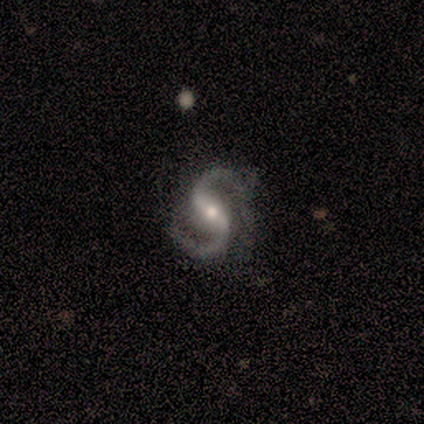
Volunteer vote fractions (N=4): smooth-or-featured: featured or disk: 100% | smooth: 0% | star or artifact: 0%
  disk-edge-on: no: 100% | yes: 0%
    bar: strong: 75% | weak: 25% | no: 0%
    has-spiral-arms: yes: 100% | no: 0%
      spiral-winding: medium: 75% | loose: 25% | tight: 0%
      spiral-arm-count: 2: 75% | 1: 25% | 3: 0% | 4: 0% | more than 4: 0% | can't tell: 0%
    bulge-size: moderate: 75% | small: 25% | dominant: 0% | large: 0% | none: 0%
  merging: none: 75% | minor disturbance: 25% | major disturbance: 0% | merger: 0%